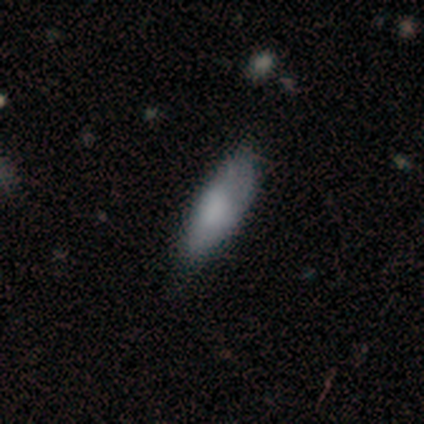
Volunteers were most divided on "how rounded" (2-way tie): in between: 46%, cigar-shaped: 46%, round: 7%. More confident: smooth or featured — smooth (74%); merging — none (54%).